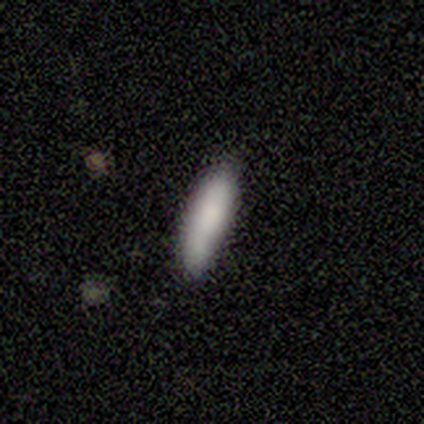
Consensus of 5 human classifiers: Overall: smooth (100%). How rounded: in between (60%; cigar-shaped 40%). Merging: none (40%; minor disturbance 20%).